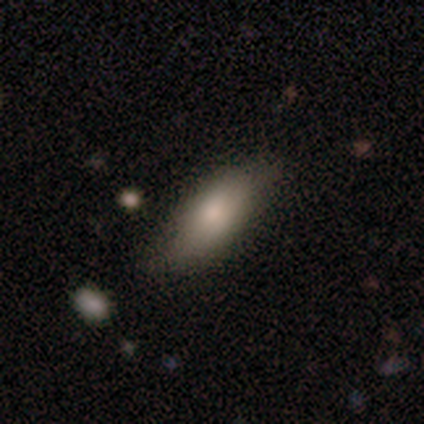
Morphology: type=smooth (72%); roundness=in between (89%); merging=none (81%).